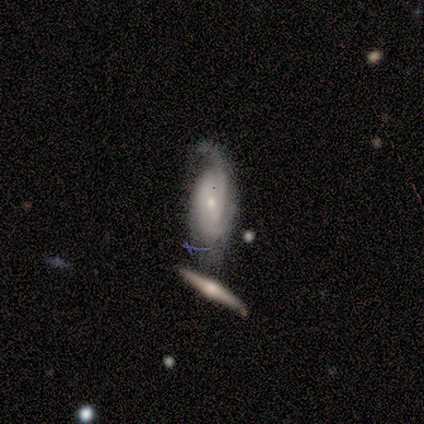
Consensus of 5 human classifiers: Smooth or featured? featured or disk (80%)
Edge-on disk? no (100%)
Bar? no (75%)
Spiral arms? yes (100%)
Spiral winding? tight (50%, tied with medium)
Spiral arm count? 2 (50%, tied with can't tell)
Bulge size? small (100%)
Merging? merger (80%)